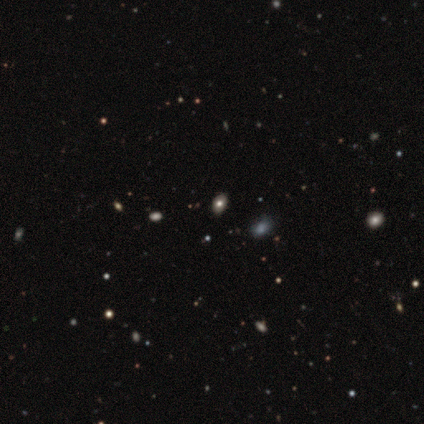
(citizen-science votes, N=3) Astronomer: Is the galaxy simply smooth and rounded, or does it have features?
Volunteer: smooth — 33%, tied with featured or disk and star or artifact at 33%.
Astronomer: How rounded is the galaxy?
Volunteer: round — 100%.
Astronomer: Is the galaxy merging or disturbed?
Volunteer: none — 100%.